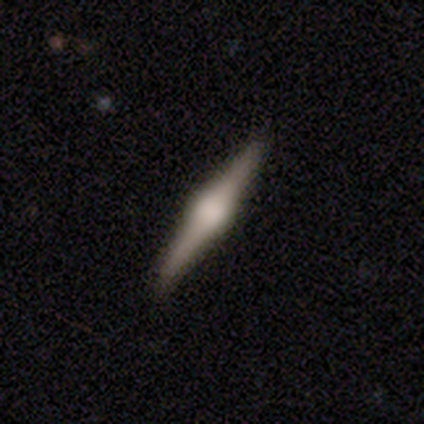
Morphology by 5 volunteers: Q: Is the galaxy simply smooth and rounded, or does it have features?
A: featured or disk — 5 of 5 (100%).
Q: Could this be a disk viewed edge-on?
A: yes — 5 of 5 (100%).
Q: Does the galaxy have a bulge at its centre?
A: rounded — 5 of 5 (100%).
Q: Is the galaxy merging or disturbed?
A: none — 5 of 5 (100%).